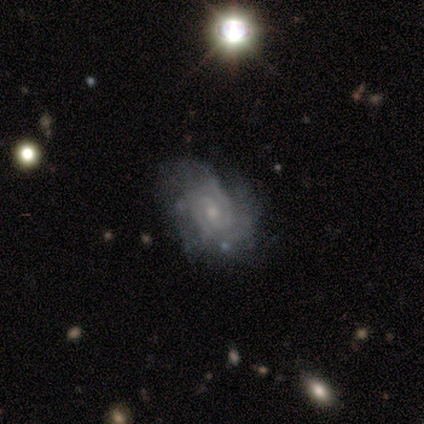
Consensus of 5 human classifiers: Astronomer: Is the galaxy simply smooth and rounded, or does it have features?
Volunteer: featured or disk — 80%.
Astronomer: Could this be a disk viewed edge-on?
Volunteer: no — 100%.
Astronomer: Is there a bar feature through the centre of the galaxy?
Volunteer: no — 75%.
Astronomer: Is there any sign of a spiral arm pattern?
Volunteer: yes — 100%.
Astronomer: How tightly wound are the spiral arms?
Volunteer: tight — 75%.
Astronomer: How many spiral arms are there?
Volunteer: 3 — 50%.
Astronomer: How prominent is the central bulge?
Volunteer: moderate — 50%, tied with small at 50%.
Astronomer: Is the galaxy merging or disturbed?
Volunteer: none — 75%.